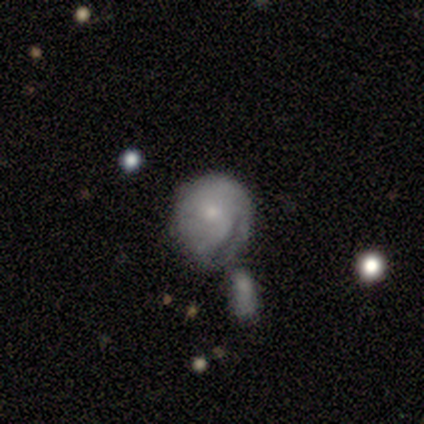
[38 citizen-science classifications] Smooth or featured: smooth — 61% (featured or disk — 34%)
How rounded: round — 70% (in between — 30%)
Merging: merger — 39% (minor disturbance — 31%)